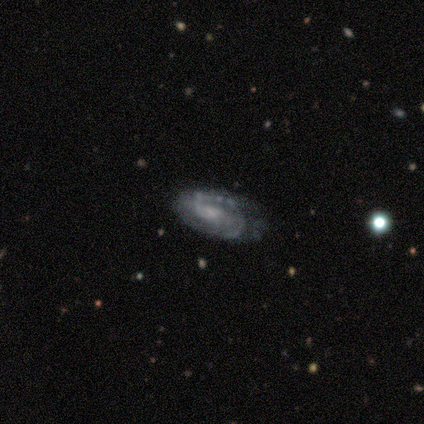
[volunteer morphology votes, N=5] Smooth or featured? featured or disk (80%)
Edge-on disk? no (100%)
Bar? weak (75%)
Spiral arms? yes (100%)
Spiral winding? tight (50%)
Spiral arm count? 2 (50%)
Bulge size? small (50%)
Merging? none (80%)